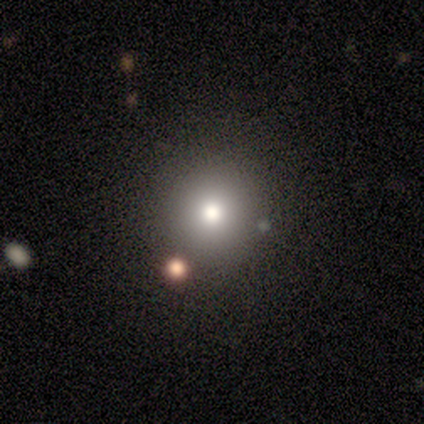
A smooth galaxy with no disk features (80%) that is round (100%).

Vote fractions:
- Smooth or featured? smooth: 80% / star or artifact: 20% / featured or disk: 0%
- How rounded? round: 100% / in between: 0% / cigar-shaped: 0%
- Merging? none: 100% / minor disturbance: 0% / major disturbance: 0% / merger: 0%